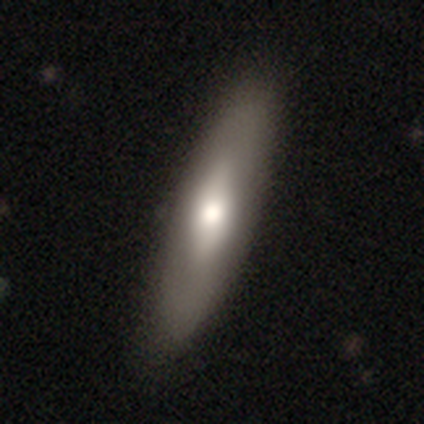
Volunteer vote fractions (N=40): Smooth or featured: smooth — 50% (featured or disk — 45%)
How rounded: cigar-shaped — 55% (in between — 45%)
Merging: none — 79% (minor disturbance — 3%)